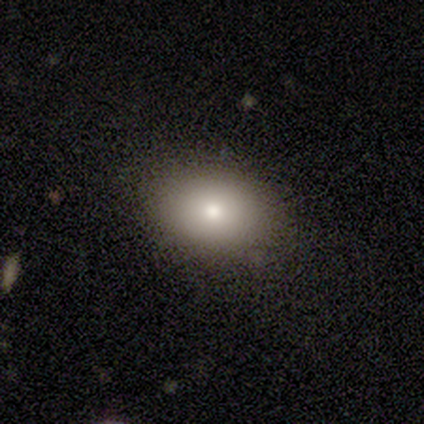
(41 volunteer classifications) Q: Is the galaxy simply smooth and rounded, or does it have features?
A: smooth — 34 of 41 (83%).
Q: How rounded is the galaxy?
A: in between — 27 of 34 (79%).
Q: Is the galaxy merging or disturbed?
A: none — 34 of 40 (85%).